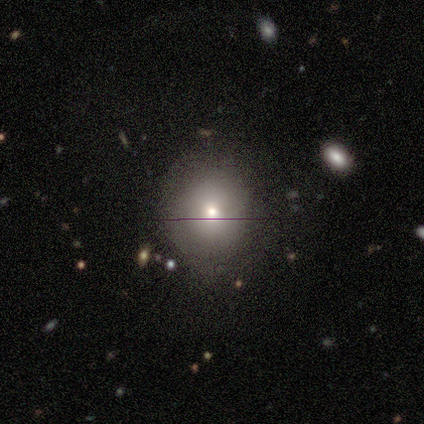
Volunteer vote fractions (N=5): Smooth or featured? 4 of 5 (80%) said smooth. How rounded? 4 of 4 (100%) said round. Merging? 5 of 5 (100%) said none.